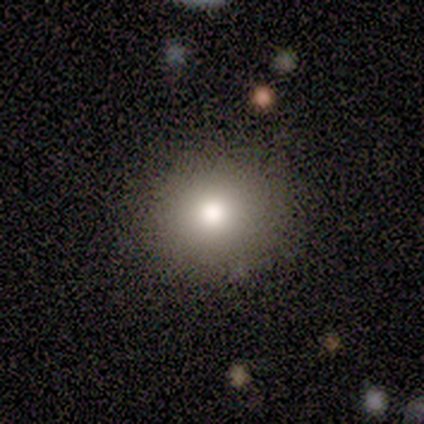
Q: Smooth or featured?
A: smooth (100%)
Q: How rounded?
A: round (75%); runner-up: in between (25%)
Q: Merging?
A: none (88%); runner-up: minor disturbance (12%)